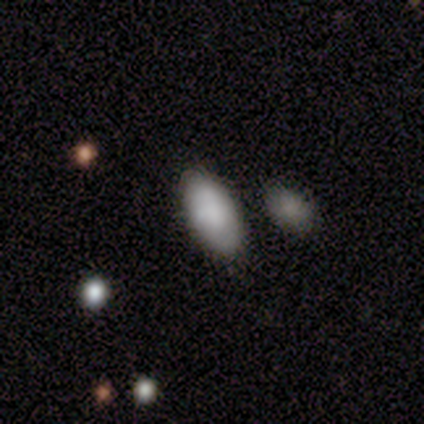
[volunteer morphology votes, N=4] A smooth galaxy with no disk features (75%) that is round (33%, tied with in between and cigar-shaped). Merging: none (50%).